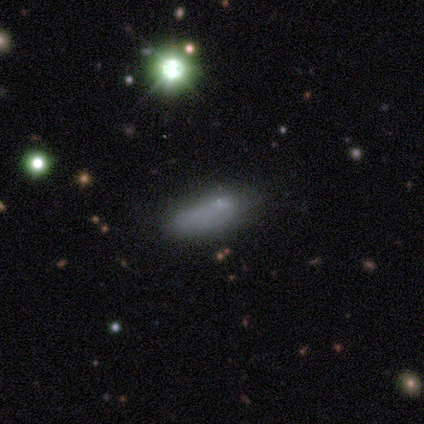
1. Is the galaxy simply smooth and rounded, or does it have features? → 80% smooth, 20% featured or disk, 0% star or artifact.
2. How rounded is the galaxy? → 75% in between, 25% cigar-shaped, 0% round.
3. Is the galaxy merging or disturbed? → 60% none, 20% minor disturbance, 20% major disturbance, 0% merger.